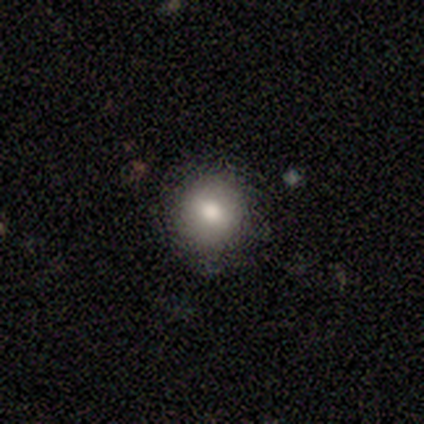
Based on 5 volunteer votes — Morphology: type=smooth (80%); roundness=round (75%); merging=none (80%).